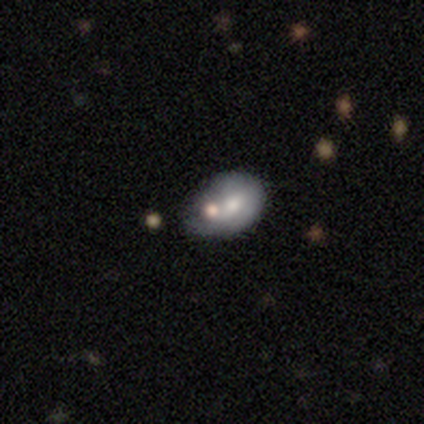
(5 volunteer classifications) A smooth galaxy with no disk features (60%) that is in between round and cigar-shaped (100%).

Vote fractions:
- Smooth or featured? smooth: 60% / featured or disk: 40% / star or artifact: 0%
- How rounded? in between: 100% / round: 0% / cigar-shaped: 0%
- Merging? minor disturbance: 40% (tied) / major disturbance: 40% (tied) / merger: 20% / none: 0%